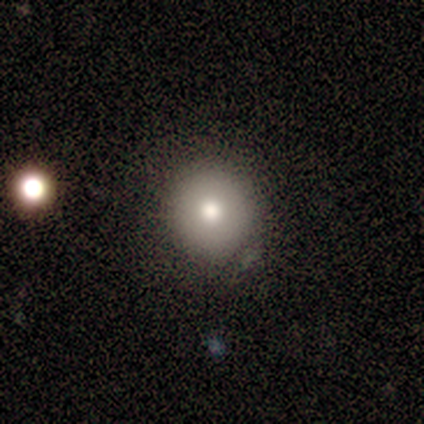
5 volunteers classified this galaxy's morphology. Q: Smooth or featured?
A: smooth (100%)
Q: How rounded?
A: round (100%)
Q: Merging?
A: none (80%); runner-up: minor disturbance (20%)